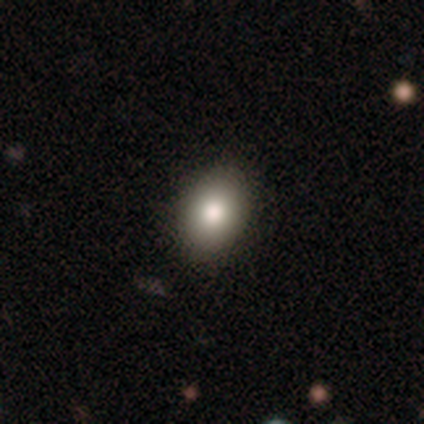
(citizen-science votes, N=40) Smooth or featured?
  - smooth: 82% *
  - featured or disk: 10%
  - star or artifact: 8%
How rounded?
  - in between: 64% *
  - round: 36%
  - cigar-shaped: 0%
Merging?
  - none: 86% *
  - minor disturbance: 11%
  - major disturbance: 3%
  - merger: 0%